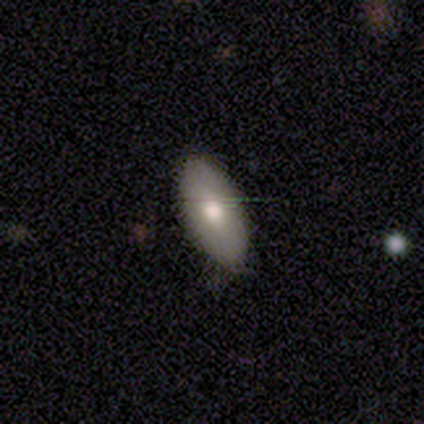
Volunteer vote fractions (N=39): This is possibly a smooth galaxy (59%). How rounded: clearly in between (96%). Merging: likely none (61%).